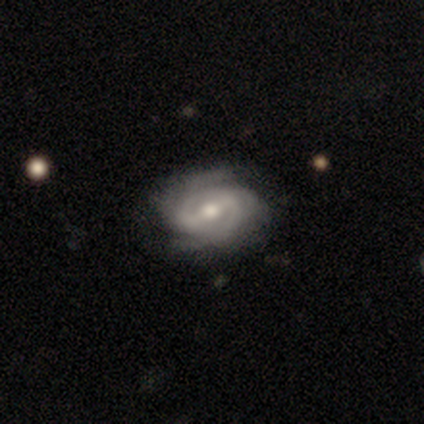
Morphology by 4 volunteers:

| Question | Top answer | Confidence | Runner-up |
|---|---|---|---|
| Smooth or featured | featured or disk | 100% | — |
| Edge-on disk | no | 100% | — |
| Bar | strong | 50% | tied: weak (50%) |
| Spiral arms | yes | 75% | no (25%) |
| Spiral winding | medium | 67% | tight (33%) |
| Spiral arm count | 2 | 67% | 3 (33%) |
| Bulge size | moderate | 75% | small (25%) |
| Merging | none | 100% | — |